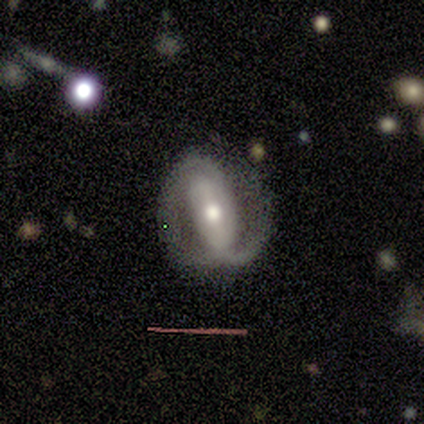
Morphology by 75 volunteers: A featured or disk galaxy (80%) with a strong bar (49%), 2 (85%) medium (38%) spiral arms (87%) and a moderate central bulge (73%).

Vote fractions:
- Smooth or featured? featured or disk: 80% / smooth: 17% / star or artifact: 3%
- Edge-on disk? no: 92% / yes: 8%
- Bar? strong: 49% / weak: 27% / no: 24%
- Spiral arms? yes: 87% / no: 13%
- Spiral winding? medium: 38% / tight: 31% / loose: 31%
- Spiral arm count? 2: 85% / can't tell: 10% / 1: 4% / 3: 0% / 4: 0% / more than 4: 0%
- Bulge size? moderate: 73% / large: 13% / small: 13% / dominant: 2% / none: 0%
- Merging? none: 47% / minor disturbance: 34% / major disturbance: 15% / merger: 4%